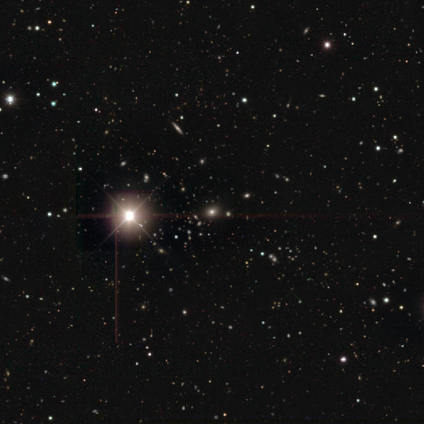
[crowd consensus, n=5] A star or artifact, not a galaxy (60%).